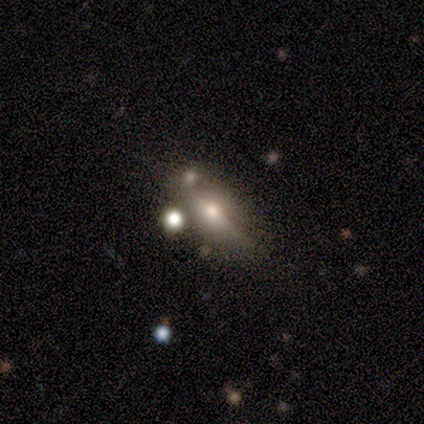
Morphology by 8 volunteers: This appears to be a smooth galaxy with no disk features (50%) that is in between round and cigar-shaped (100%). Merging: none (43%, tied with minor disturbance).